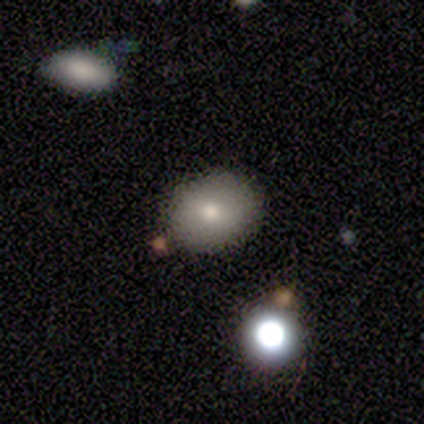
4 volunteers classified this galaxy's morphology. Smooth or featured? 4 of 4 (100%) said smooth. How rounded? 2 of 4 (50%, tied with in between) said round. Merging? 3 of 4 (75%) said none.